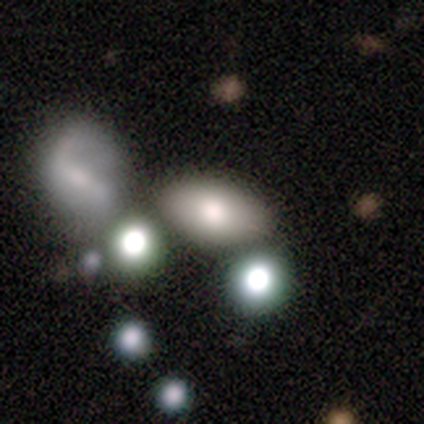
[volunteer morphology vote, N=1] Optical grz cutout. It shows a featured or disk galaxy (100%) with no bar (100%), no spiral arms (100%) and a moderate central bulge (100%). Merging: none (100%).